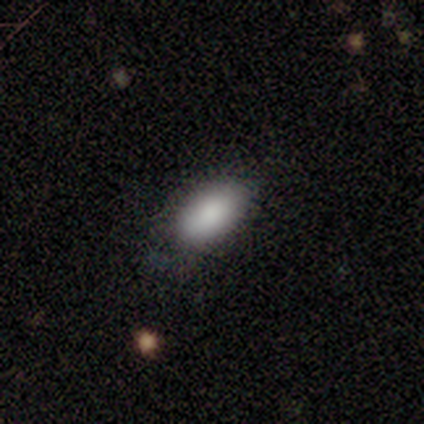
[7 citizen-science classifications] A smooth galaxy with no disk features (86%) that is in between round and cigar-shaped (100%). Merging: none (83%).